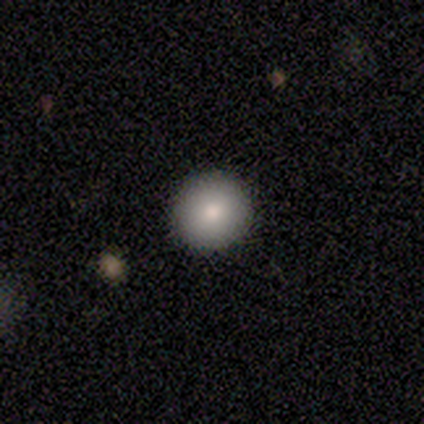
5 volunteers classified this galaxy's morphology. type=smooth (80%); roundness=round (100%); merging=none (100%).